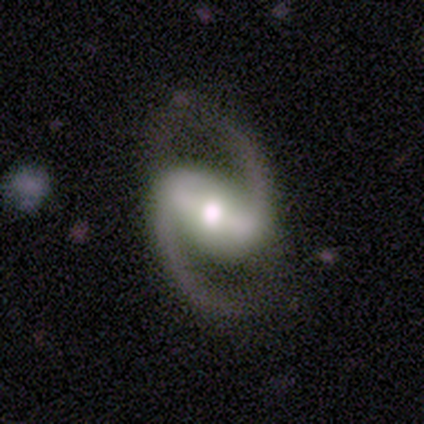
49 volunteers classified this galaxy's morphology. Overall: featured or disk (96%). Edge-on disk: no (96%). Bar: strong (71%). Spiral arms: yes (100%). Spiral arm count: 2 (100%). Spiral winding: medium (58%; loose 38%). Bulge size: moderate (67%). Merging: none (81%).